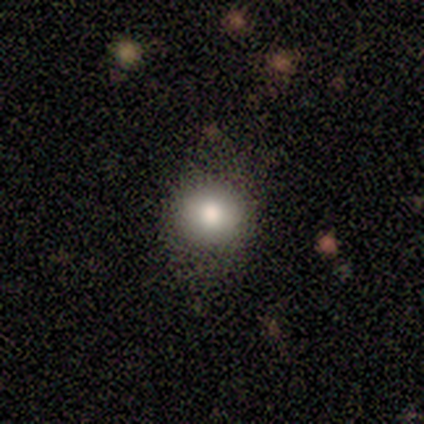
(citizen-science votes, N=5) This appears to be a smooth galaxy with no disk features (100%) that is round (100%). Merging: none (100%).